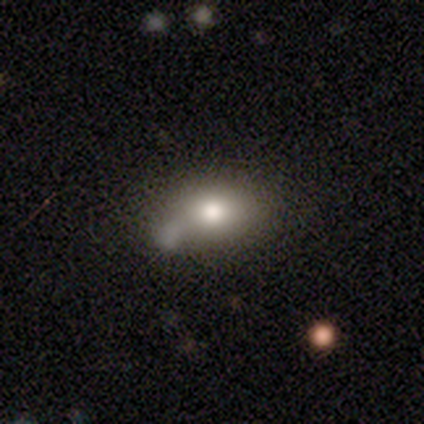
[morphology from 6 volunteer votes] smooth-or-featured: smooth: 50% | star or artifact: 33% | featured or disk: 17%
  how-rounded: round: 67% | in between: 33% | cigar-shaped: 0%
  merging: none: 50% (tied) | merger: 50% (tied) | minor disturbance: 0% | major disturbance: 0%